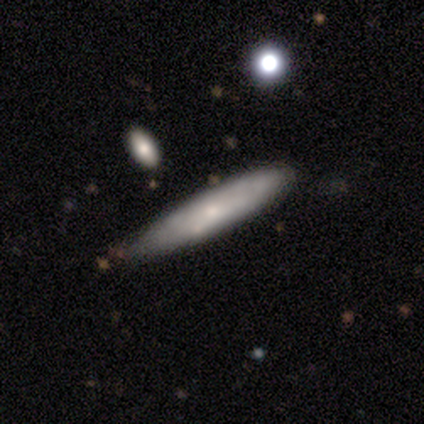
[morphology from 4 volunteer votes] A smooth galaxy with no disk features (50%, tied with featured or disk) that is in between round and cigar-shaped (50%, tied with cigar-shaped).

Vote fractions:
- Smooth or featured? smooth: 50% (tied) / featured or disk: 50% (tied) / star or artifact: 0%
- How rounded? in between: 50% (tied) / cigar-shaped: 50% (tied) / round: 0%
- Merging? minor disturbance: 75% / none: 25% / major disturbance: 0% / merger: 0%